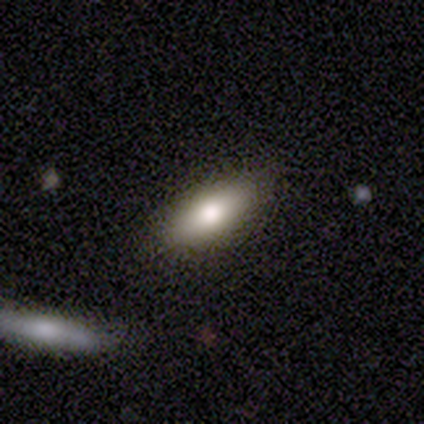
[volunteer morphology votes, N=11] Smooth or featured? 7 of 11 (64%) said smooth. How rounded? 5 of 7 (71%) said in between. Merging? 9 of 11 (82%) said none.